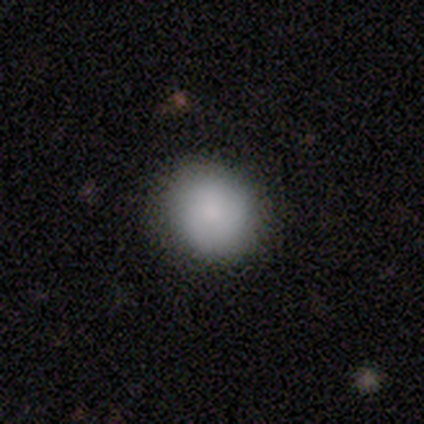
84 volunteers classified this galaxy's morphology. This is clearly a smooth galaxy (83%). How rounded: clearly round (83%). Merging: clearly none (85%).